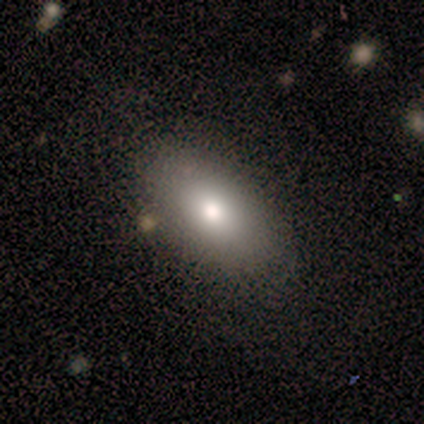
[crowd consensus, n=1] Overall: smooth (100%). How rounded: in between (100%). Merging: none (100%).